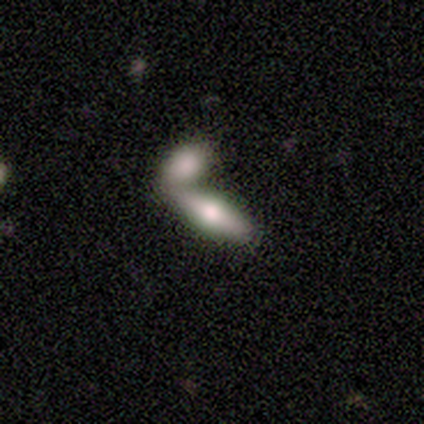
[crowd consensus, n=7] Morphology: type=smooth (71%); roundness=in between (60%); merging=merger (71%).